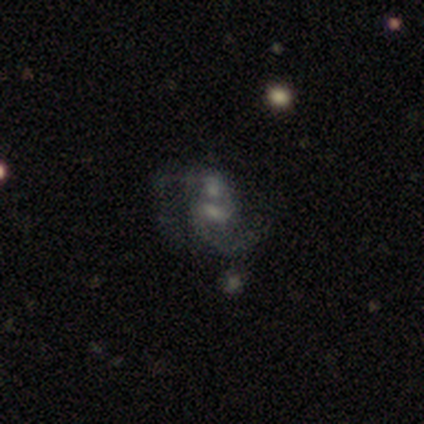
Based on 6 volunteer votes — featured or disk 83%, smooth 17%, star or artifact 0%. Down the decision tree: edge-on disk — no (100%); bar — weak (40%, tied with no); spiral arms — yes (80%); spiral arm count — 2 (75%); spiral winding — medium (100%); bulge size — small (40%); merging — merger (67%).